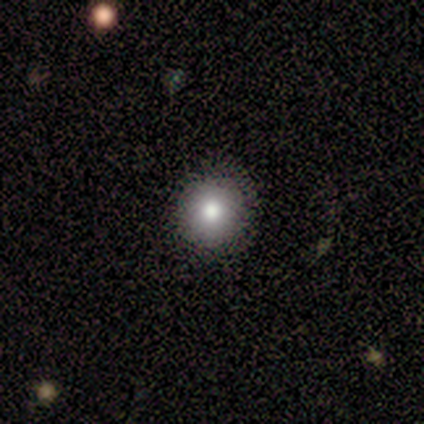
smooth 100%, featured or disk 0%, star or artifact 0%. Down the decision tree: how rounded — round (100%); merging — none (80%).